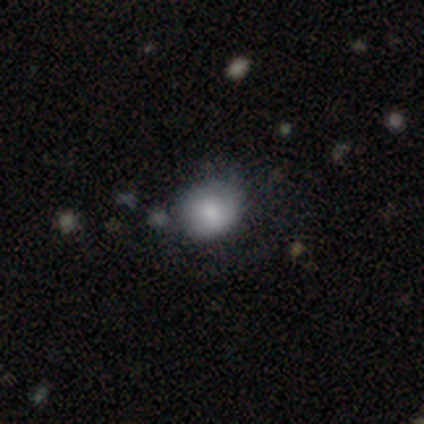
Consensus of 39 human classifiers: A smooth galaxy with no disk features (67%) that is round (85%). Merging: none (72%).